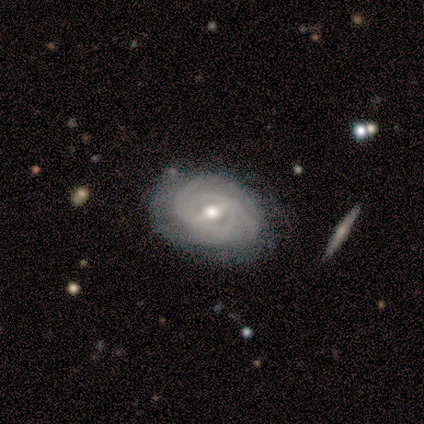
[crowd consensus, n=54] Smooth or featured? featured or disk (85%)
Edge-on disk? no (100%)
Bar? weak (70%)
Spiral arms? yes (87%)
Spiral winding? tight (62%)
Spiral arm count? can't tell (42%)
Bulge size? moderate (70%)
Merging? none (72%)